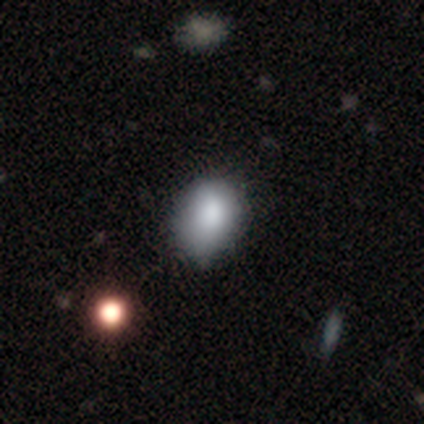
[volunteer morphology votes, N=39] This appears to be a smooth galaxy with no disk features (77%) that is in between round and cigar-shaped (70%). Merging: none (47%).